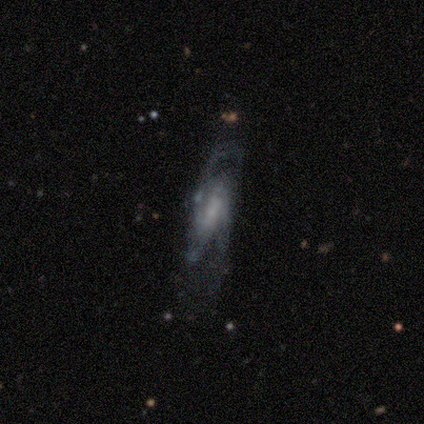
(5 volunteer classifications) Smooth or featured: featured or disk — 100%
Edge-on disk: no — 80% (yes — 20%)
Bar: weak — 50% (strong — 25%)
Spiral arms: yes — 100%
Spiral winding: loose — 50% (tight — 25%)
Spiral arm count: 2 — 100%
Bulge size: none — 75% (small — 25%)
Merging: none — 60% (minor disturbance — 20%)